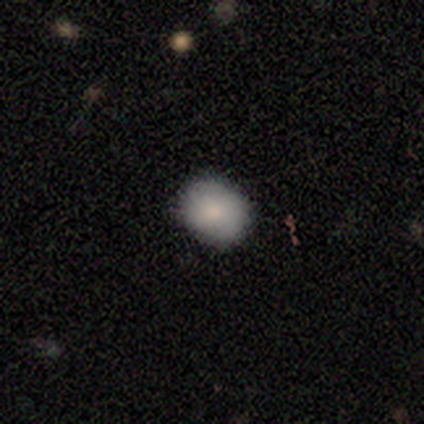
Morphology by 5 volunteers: smooth 100%, featured or disk 0%, star or artifact 0%. Down the decision tree: how rounded — round (60%); merging — none (80%).